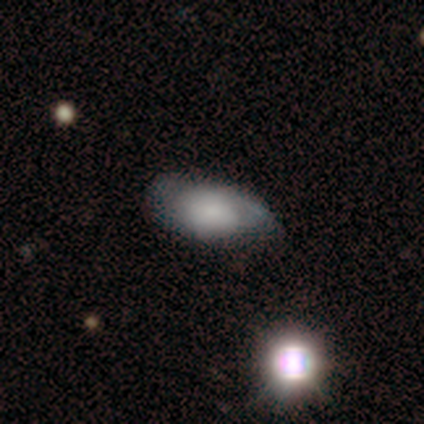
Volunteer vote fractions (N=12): Smooth or featured? smooth (58%)
How rounded? in between (100%)
Merging? minor disturbance (55%)